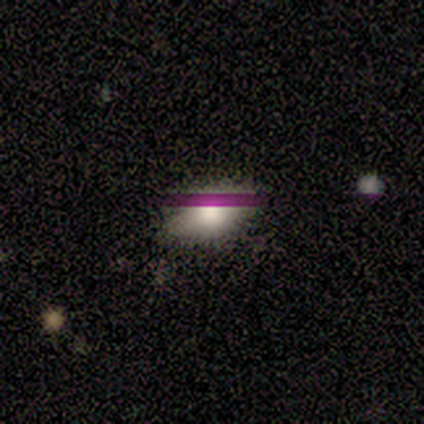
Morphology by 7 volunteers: smooth_or_featured: smooth (p=0.71) [alt: star or artifact p=0.29]
how_rounded: in between (p=1.00)
merging: none (p=1.00)